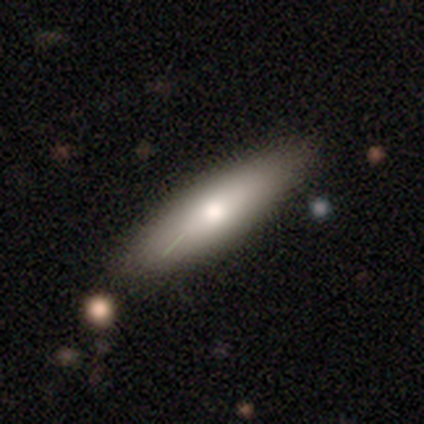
Volunteers were most divided on "smooth or featured": smooth: 57%, featured or disk: 43%, star or artifact: 0%. More confident: how rounded — cigar-shaped (75%); merging — none (71%).